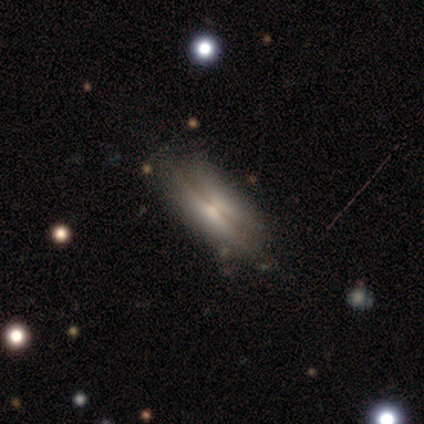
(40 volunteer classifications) This appears to be a featured or disk galaxy (55%) viewed edge-on (73%) with no central bulge (38%, tied with rounded). Merging: none (49%).